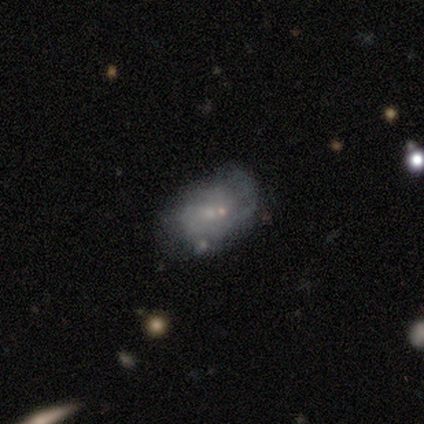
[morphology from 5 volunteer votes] featured or disk 60%, smooth 40%, star or artifact 0%. Down the decision tree: edge-on disk — no (100%); bar — no (100%); spiral arms — no (67%); bulge size — small (100%); merging — none (40%, tied with major disturbance).